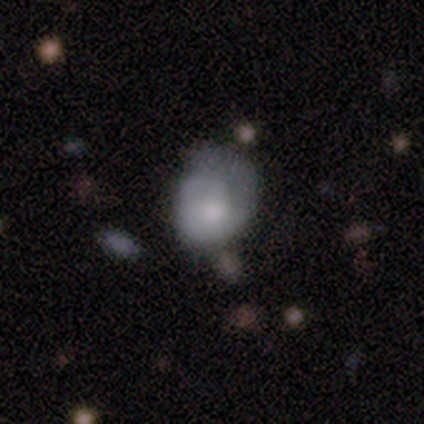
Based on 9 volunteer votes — Smooth or featured?
  - featured or disk: 56% *
  - smooth: 44%
  - star or artifact: 0%
Edge-on disk?
  - no: 100% *
  - yes: 0%
Bar?
  - no: 100% *
  - strong: 0%
  - weak: 0%
Spiral arms?
  - yes: 60% *
  - no: 40%
Spiral winding?
  - tight: 100% *
  - medium: 0%
  - loose: 0%
Spiral arm count?
  - 1: 100% *
  - 2: 0%
  - 3: 0%
  - 4: 0%
  - more than 4: 0%
  - can't tell: 0%
Bulge size?
  - moderate: 60% *
  - large: 20%
  - none: 20%
  - dominant: 0%
  - small: 0%
Merging?
  - none: 56% *
  - minor disturbance: 33%
  - major disturbance: 11%
  - merger: 0%